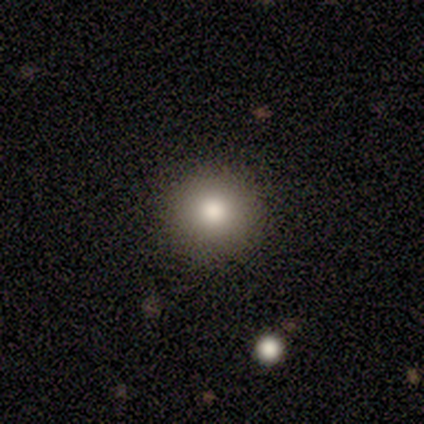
smooth_or_featured: smooth (p=0.89) [alt: featured or disk p=0.06]
how_rounded: round (p=1.00)
merging: none (p=1.00)